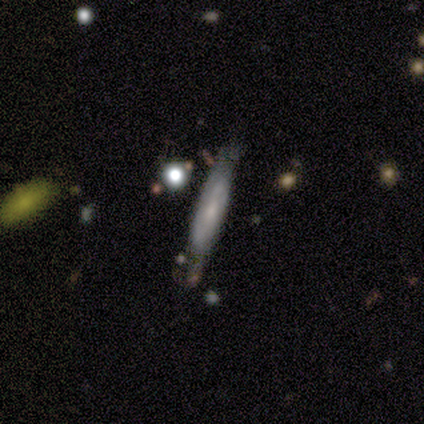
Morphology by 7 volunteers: Q: Smooth or featured?
A: smooth (57%); runner-up: featured or disk (43%)
Q: How rounded?
A: cigar-shaped (75%); runner-up: round (25%)
Q: Merging?
A: none (43%); runner-up: minor disturbance (29%)